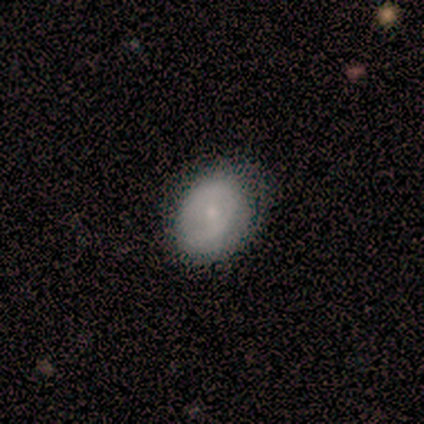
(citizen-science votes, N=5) A smooth galaxy with no disk features (60%) that is in between round and cigar-shaped (100%).

Vote fractions:
- Smooth or featured? smooth: 60% / featured or disk: 40% / star or artifact: 0%
- How rounded? in between: 100% / round: 0% / cigar-shaped: 0%
- Merging? none: 60% / minor disturbance: 20% / major disturbance: 20% / merger: 0%